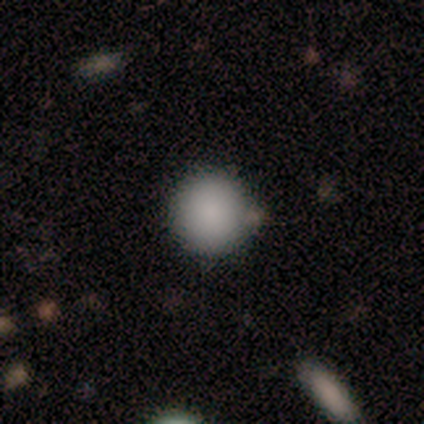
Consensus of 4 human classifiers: smooth-or-featured: smooth: 100% | featured or disk: 0% | star or artifact: 0%
  how-rounded: round: 75% | in between: 25% | cigar-shaped: 0%
  merging: none: 75% | minor disturbance: 25% | major disturbance: 0% | merger: 0%